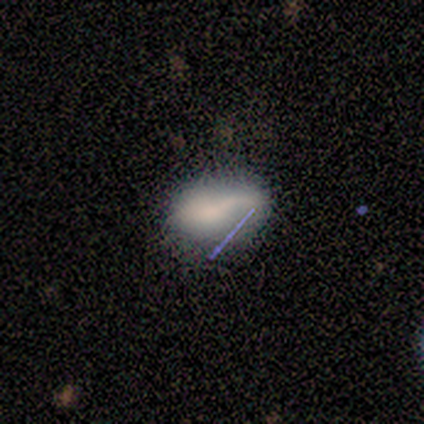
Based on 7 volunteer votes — A smooth galaxy with no disk features (57%) that is in between round and cigar-shaped (100%).

Vote fractions:
- Smooth or featured? smooth: 57% / featured or disk: 29% / star or artifact: 14%
- How rounded? in between: 100% / round: 0% / cigar-shaped: 0%
- Merging? none: 50% (tied) / minor disturbance: 50% (tied) / major disturbance: 0% / merger: 0%